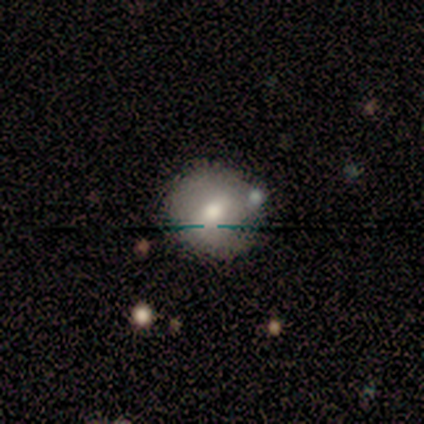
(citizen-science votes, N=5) smooth-or-featured: smooth: 80% | star or artifact: 20% | featured or disk: 0%
  how-rounded: round: 100% | in between: 0% | cigar-shaped: 0%
  merging: none: 100% | minor disturbance: 0% | major disturbance: 0% | merger: 0%